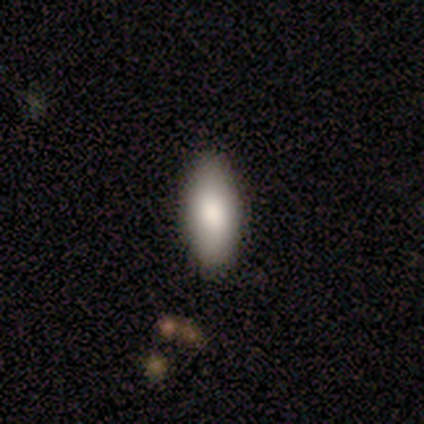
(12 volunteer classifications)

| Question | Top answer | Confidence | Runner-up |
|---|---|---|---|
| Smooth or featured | smooth | 75% | featured or disk (17%) |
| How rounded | in between | 89% | cigar-shaped (11%) |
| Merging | none | 100% | — |